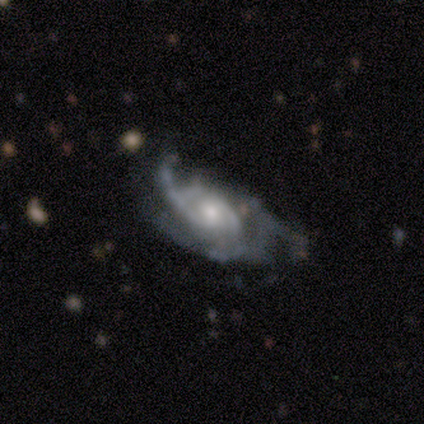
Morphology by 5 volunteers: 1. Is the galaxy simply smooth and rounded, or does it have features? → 80% featured or disk, 20% smooth, 0% star or artifact.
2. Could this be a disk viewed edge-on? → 100% no, 0% yes.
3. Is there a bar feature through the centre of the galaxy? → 75% no, 25% weak, 0% strong.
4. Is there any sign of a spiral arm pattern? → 100% yes, 0% no.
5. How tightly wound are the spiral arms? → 50% tight, 25% medium, 25% loose.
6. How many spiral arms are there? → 50% 3 (tied), 50% can't tell (tied), 0% 1, 0% 2, 0% 4, 0% more than 4.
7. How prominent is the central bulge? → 100% moderate, 0% dominant, 0% large, 0% small, 0% none.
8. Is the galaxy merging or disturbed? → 60% none, 40% major disturbance, 0% minor disturbance, 0% merger.